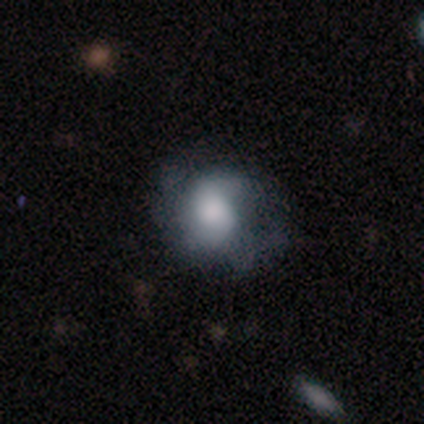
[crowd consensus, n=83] smooth 51%, featured or disk 45%, star or artifact 5%. Down the decision tree: how rounded — round (64%); merging — none (47%).